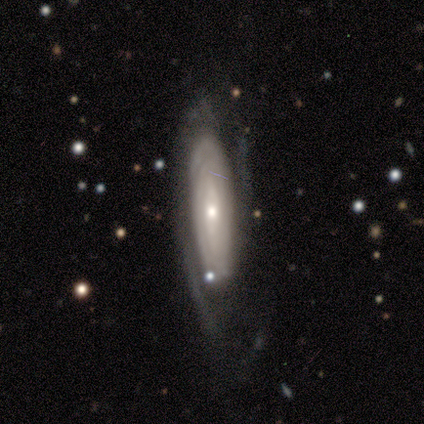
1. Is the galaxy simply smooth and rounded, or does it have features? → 80% featured or disk, 20% smooth, 0% star or artifact.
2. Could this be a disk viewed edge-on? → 100% no, 0% yes.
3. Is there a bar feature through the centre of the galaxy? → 50% strong, 25% weak, 25% no.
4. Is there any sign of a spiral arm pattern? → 100% yes, 0% no.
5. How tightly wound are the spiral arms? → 100% tight, 0% medium, 0% loose.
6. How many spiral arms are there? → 100% can't tell, 0% 1, 0% 2, 0% 3, 0% 4, 0% more than 4.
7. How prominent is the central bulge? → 50% moderate (tied), 50% small (tied), 0% dominant, 0% large, 0% none.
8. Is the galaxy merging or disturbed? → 60% none, 20% minor disturbance, 20% major disturbance, 0% merger.